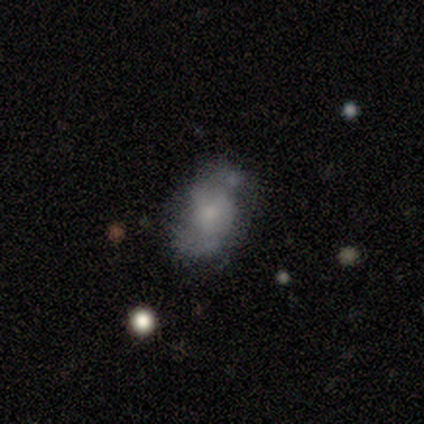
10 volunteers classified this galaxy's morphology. type=featured or disk (70%); edge-on=no (71%); bar=no (100%); spiral arms=yes (80%); winding=tight (50%, tied with medium); arm count=2 (50%, tied with can't tell); bulge=small (40%, tied with none); merging=none (60%).